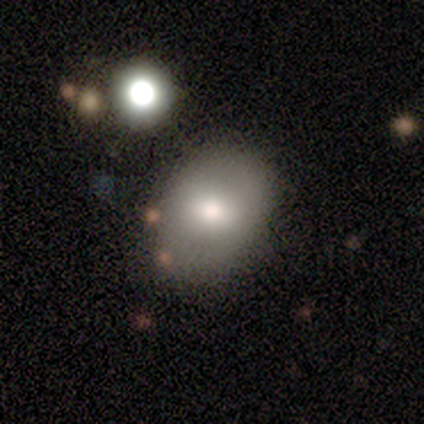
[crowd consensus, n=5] Overall: smooth (80%). How rounded: round (50%, tied with in between). Merging: none (60%; minor disturbance 20%).